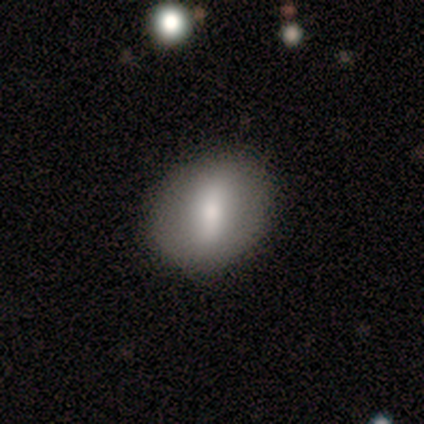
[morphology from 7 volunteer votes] smooth 71%, featured or disk 29%, star or artifact 0%. Down the decision tree: how rounded — round (80%); merging — none (86%).